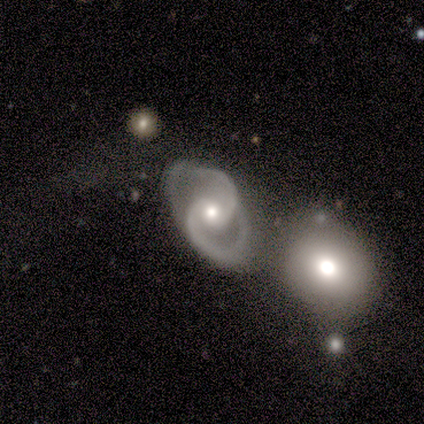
Morphology: type=featured or disk (80%); edge-on=no (100%); bar=no (50%); spiral arms=yes (100%); winding=tight (50%, tied with medium); arm count=2 (100%); bulge=moderate (100%); merging=none (75%).